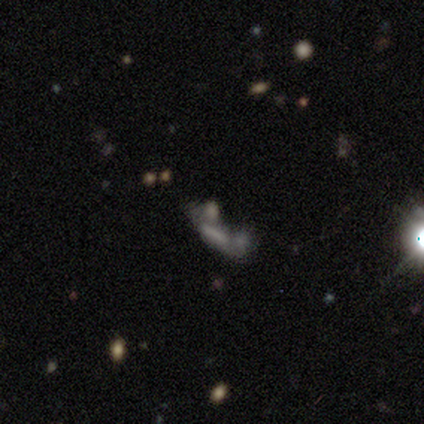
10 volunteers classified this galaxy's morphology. This is marginally a star or artifact rather than a galaxy (40%).